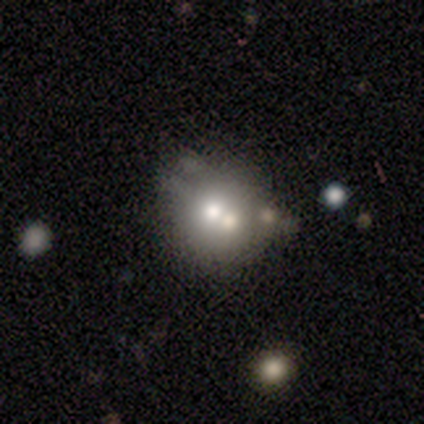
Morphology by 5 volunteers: smooth 60%, featured or disk 40%, star or artifact 0%. Down the decision tree: how rounded — round (67%); merging — none (40%, tied with minor disturbance).